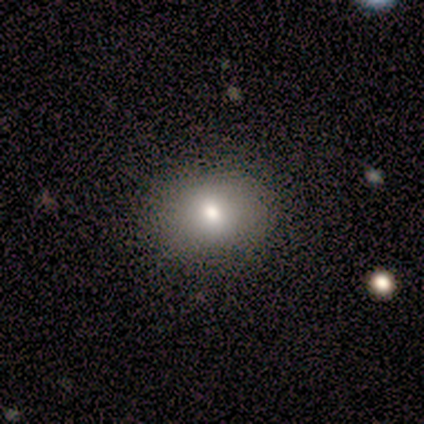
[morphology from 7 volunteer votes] smooth_or_featured: smooth (p=0.71) [alt: featured or disk p=0.14]
how_rounded: round (p=0.80) [alt: in between p=0.20]
merging: none (p=1.00)